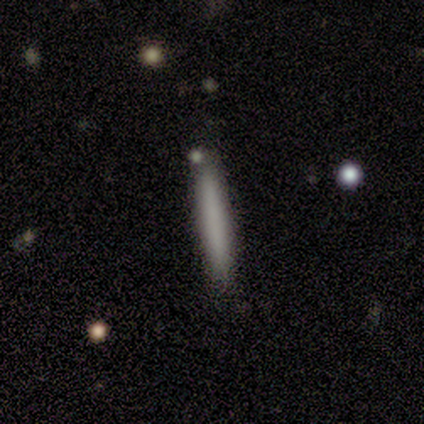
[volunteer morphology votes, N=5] Overall: smooth (100%). How rounded: cigar-shaped (100%). Merging: none (100%).